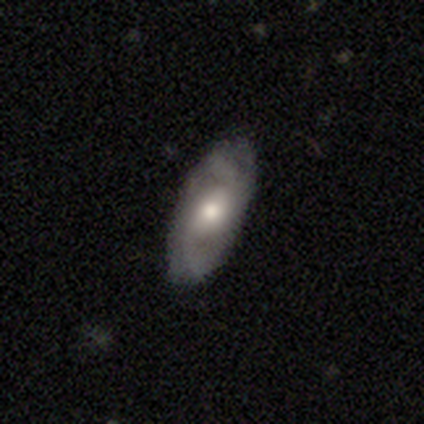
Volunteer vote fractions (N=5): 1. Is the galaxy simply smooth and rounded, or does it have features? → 80% featured or disk, 20% smooth, 0% star or artifact.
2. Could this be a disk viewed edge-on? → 75% no, 25% yes.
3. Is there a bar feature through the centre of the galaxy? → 67% no, 33% strong, 0% weak.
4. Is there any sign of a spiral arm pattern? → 67% yes, 33% no.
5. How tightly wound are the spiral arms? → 50% medium (tied), 50% loose (tied), 0% tight.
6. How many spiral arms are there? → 100% 2, 0% 1, 0% 3, 0% 4, 0% more than 4, 0% can't tell.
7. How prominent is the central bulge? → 67% moderate, 33% dominant, 0% large, 0% small, 0% none.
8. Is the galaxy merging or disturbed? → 80% none, 20% minor disturbance, 0% major disturbance, 0% merger.